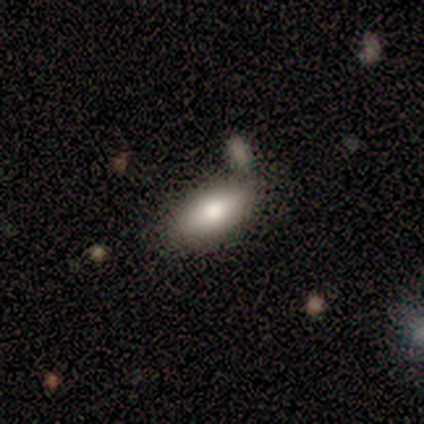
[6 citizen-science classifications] Smooth or featured: smooth — 83% (featured or disk — 17%)
How rounded: in between — 80% (cigar-shaped — 20%)
Merging: none — 67% (minor disturbance — 17%)